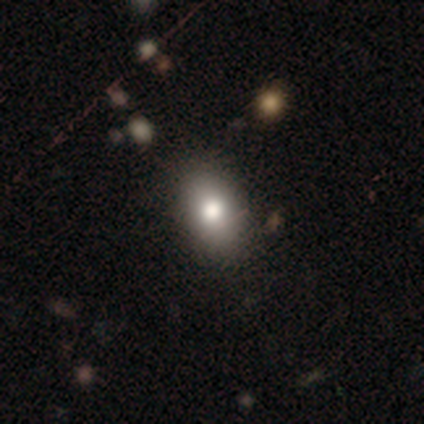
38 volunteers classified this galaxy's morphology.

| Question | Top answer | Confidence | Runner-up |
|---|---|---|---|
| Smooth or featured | smooth | 79% | featured or disk (11%) |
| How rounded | in between | 87% | round (10%) |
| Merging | none | 76% | minor disturbance (18%) |